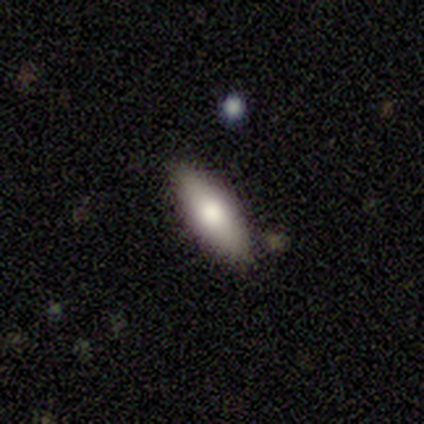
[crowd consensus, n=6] Smooth or featured? smooth (83%)
How rounded? in between (100%)
Merging? none (100%)